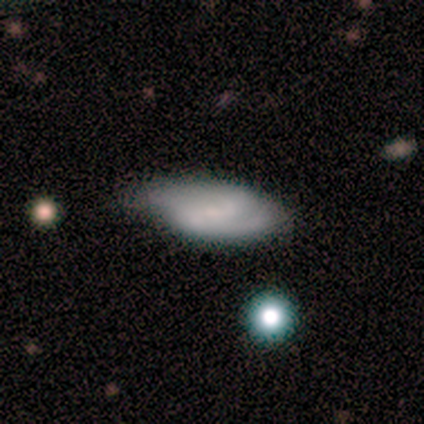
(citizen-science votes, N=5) Smooth or featured?
  - smooth: 40% * (tied)
  - featured or disk: 40% * (tied)
  - star or artifact: 20%
How rounded?
  - in between: 100% *
  - round: 0%
  - cigar-shaped: 0%
Merging?
  - none: 75% *
  - minor disturbance: 25%
  - major disturbance: 0%
  - merger: 0%